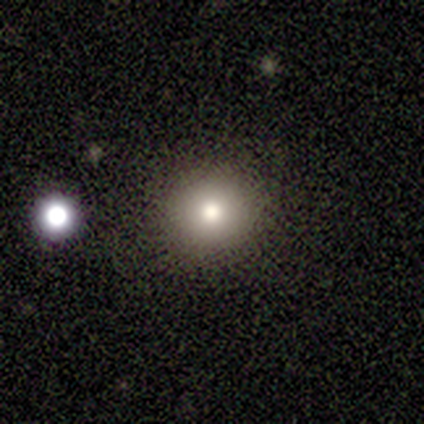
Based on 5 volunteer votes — Smooth or featured? smooth (80%)
How rounded? round (100%)
Merging? none (75%)